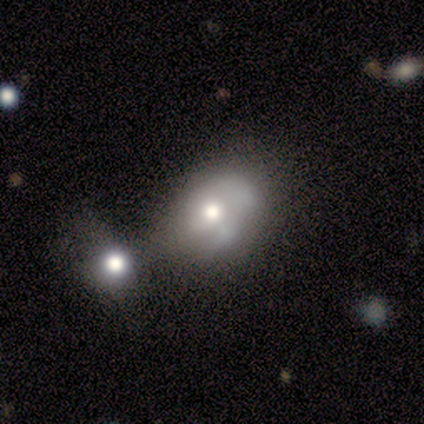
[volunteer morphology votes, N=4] type=smooth (75%); roundness=in between (100%); merging=merger (50%).